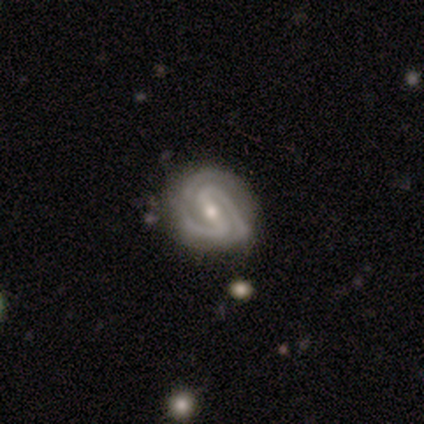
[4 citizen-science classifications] This is likely a featured or disk galaxy (75%). It is clearly not viewed edge-on (100%). Bar: likely strong (67%). Spiral arm pattern: clearly yes (100%). Spiral arm count: clearly 2 (100%). Spiral winding: clearly tight (100%). Central bulge: likely small (67%). Merging: clearly none (100%).